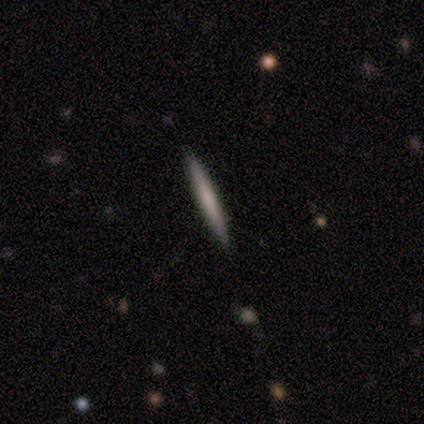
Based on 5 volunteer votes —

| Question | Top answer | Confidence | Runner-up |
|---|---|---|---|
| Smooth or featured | smooth | 80% | featured or disk (20%) |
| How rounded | cigar-shaped | 100% | — |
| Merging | none | 80% | minor disturbance (20%) |